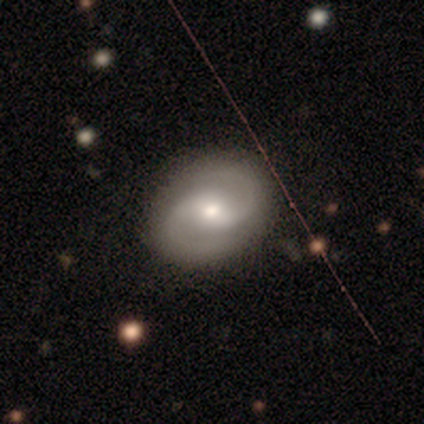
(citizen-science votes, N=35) A featured or disk galaxy (77%) with a weak bar (59%), 2 (96%) medium (74%) spiral arms (100%) and a moderate central bulge (56%). Merging: none (81%).